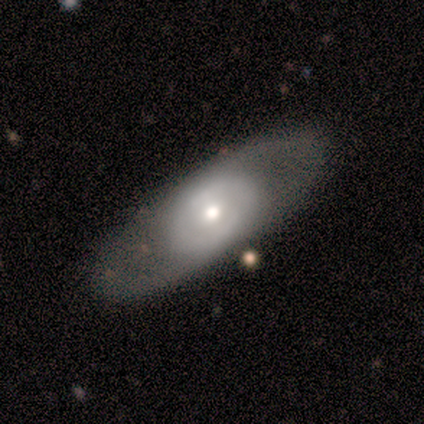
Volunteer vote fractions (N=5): Volunteers were most divided on "spiral arms" (2-way tie): yes: 50%, no: 50%; "spiral winding" (2-way tie): medium: 50%, loose: 50%, tight: 0%; "spiral arm count" (2-way tie): 2: 50%, can't tell: 50%, 1: 0%, 3: 0%, 4: 0%, more than 4: 0%; "bulge size" (2-way tie): moderate: 50%, small: 50%, dominant: 0%, large: 0%, none: 0%. More confident: edge-on disk — no (100%); smooth or featured — featured or disk (80%); bar — no (75%); merging — none (60%).